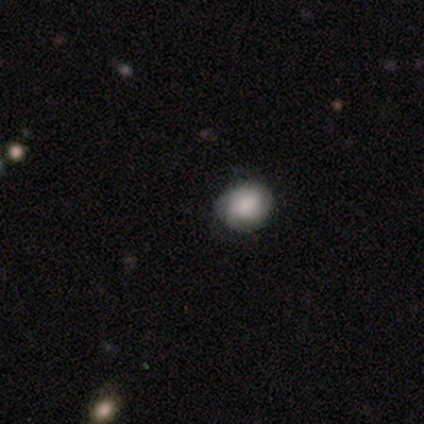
This appears to be a smooth galaxy with no disk features (60%) that is in between round and cigar-shaped (67%). Merging: none (100%).